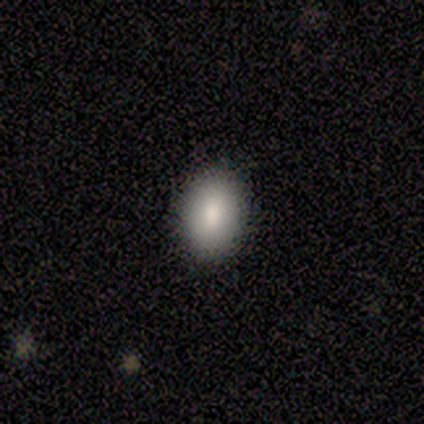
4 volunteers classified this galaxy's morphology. Smooth or featured? smooth (100%)
How rounded? in between (100%)
Merging? none (100%)